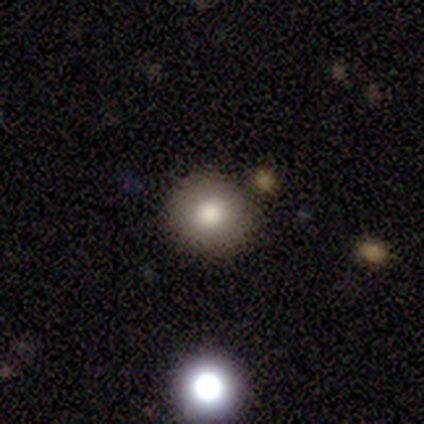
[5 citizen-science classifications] Morphology: type=smooth (80%); roundness=round (100%); merging=none (75%).